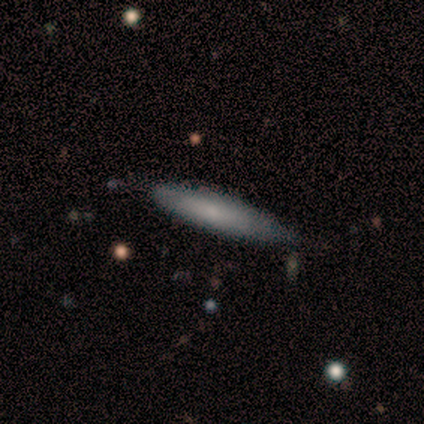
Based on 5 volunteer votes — Overall: smooth (80%). How rounded: cigar-shaped (100%). Merging: none (60%; minor disturbance 20%).